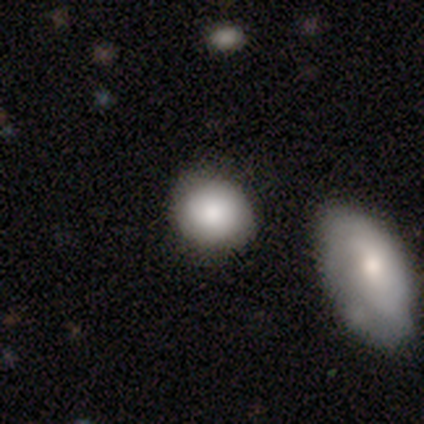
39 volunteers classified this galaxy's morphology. type=smooth (90%); roundness=round (83%); merging=none (55%).